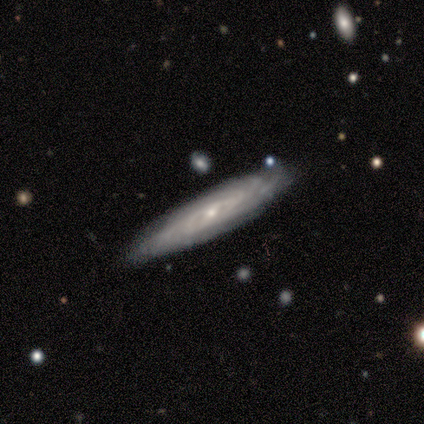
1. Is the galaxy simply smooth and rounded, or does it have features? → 100% featured or disk, 0% smooth, 0% star or artifact.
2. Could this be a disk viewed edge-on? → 50% yes (tied), 50% no (tied).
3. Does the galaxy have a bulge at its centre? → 50% none (tied), 50% rounded (tied), 0% boxy.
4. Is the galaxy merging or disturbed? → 100% none, 0% minor disturbance, 0% major disturbance, 0% merger.